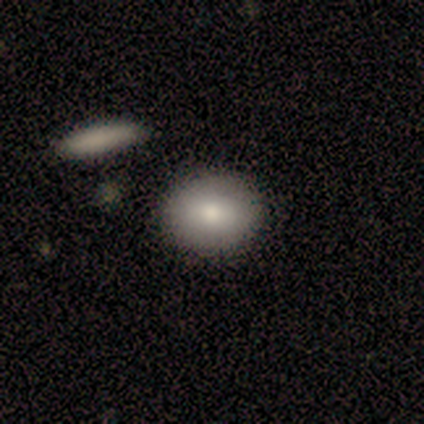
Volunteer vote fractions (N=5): Q: Smooth or featured?
A: smooth (100%)
Q: How rounded?
A: round (80%); runner-up: in between (20%)
Q: Merging?
A: none (80%); runner-up: minor disturbance (20%)